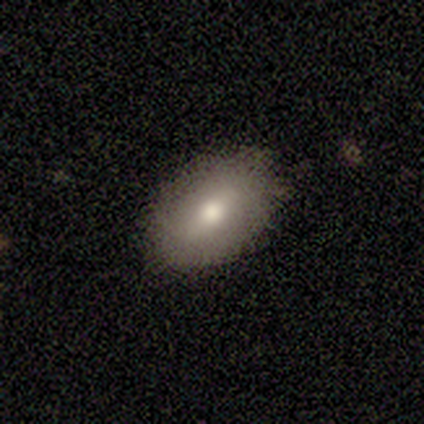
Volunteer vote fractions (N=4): Smooth or featured?
  - featured or disk: 75% *
  - smooth: 25%
  - star or artifact: 0%
Edge-on disk?
  - no: 67% *
  - yes: 33%
Bar?
  - strong: 50% * (tied)
  - no: 50% * (tied)
  - weak: 0%
Spiral arms?
  - no: 100% *
  - yes: 0%
Bulge size?
  - moderate: 100% *
  - dominant: 0%
  - large: 0%
  - small: 0%
  - none: 0%
Merging?
  - none: 50% * (tied)
  - minor disturbance: 50% * (tied)
  - major disturbance: 0%
  - merger: 0%